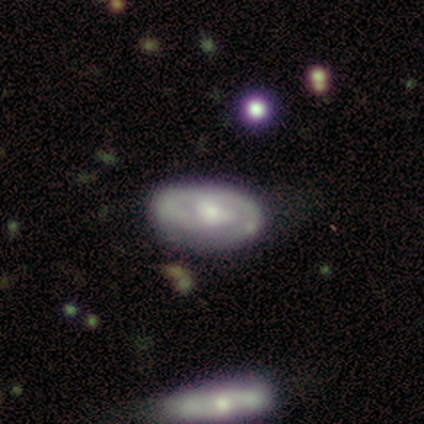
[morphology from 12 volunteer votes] This appears to be a featured or disk galaxy (83%) with no bar (67%), 2 (50%) tight (62%) spiral arms (89%) and a moderate central bulge (56%). Merging: none (67%).